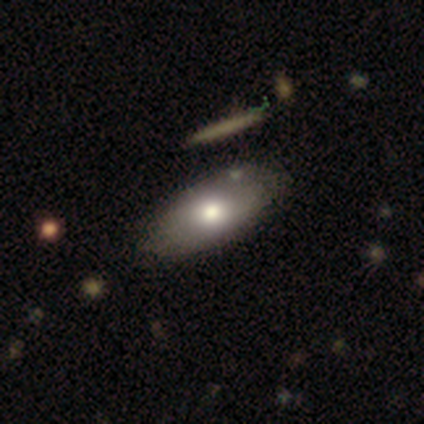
Volunteers were most divided on "merging": none: 49%, merger: 10%, minor disturbance: 8%, major disturbance: 0%. More confident: how rounded — in between (97%); smooth or featured — smooth (79%).